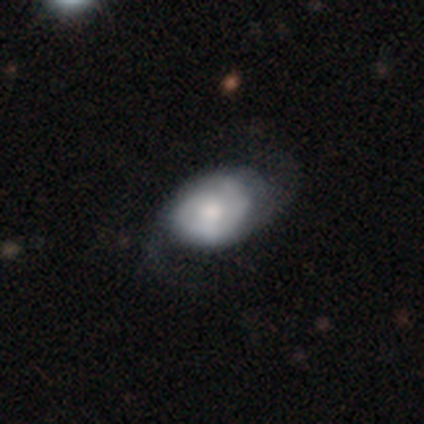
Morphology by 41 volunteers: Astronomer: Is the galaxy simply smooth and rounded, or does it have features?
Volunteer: featured or disk — 61% (runner-up: smooth, 39%).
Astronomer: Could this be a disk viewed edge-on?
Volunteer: no — 96%.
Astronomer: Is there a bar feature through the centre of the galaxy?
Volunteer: no — 71%.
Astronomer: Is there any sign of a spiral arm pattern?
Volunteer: yes — 96%.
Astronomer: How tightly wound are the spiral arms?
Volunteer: tight — 43% (runner-up: medium, 35%).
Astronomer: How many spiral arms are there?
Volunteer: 2 — 48% (runner-up: can't tell, 30%).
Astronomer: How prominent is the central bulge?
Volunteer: moderate — 58%.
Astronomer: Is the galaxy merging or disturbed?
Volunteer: none — 56%.